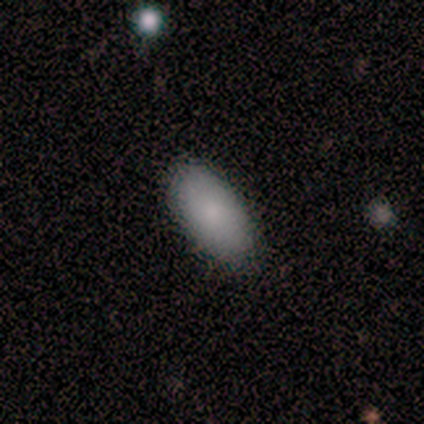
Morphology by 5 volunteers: Smooth or featured: smooth — 80% (featured or disk — 20%)
How rounded: in between — 100%
Merging: none — 100%